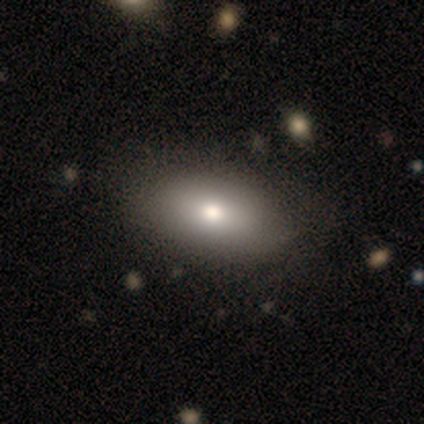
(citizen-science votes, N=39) smooth_or_featured: smooth (p=0.82) [alt: featured or disk p=0.15]
how_rounded: in between (p=0.97) [alt: round p=0.03]
merging: none (p=0.58) [alt: minor disturbance p=0.13]